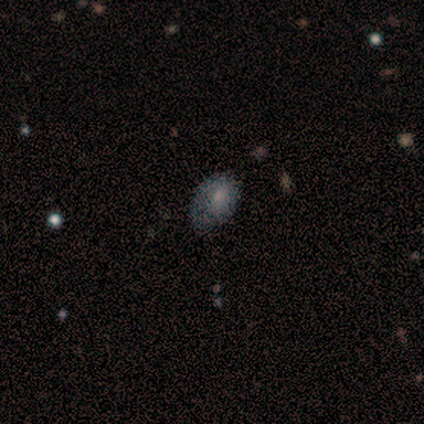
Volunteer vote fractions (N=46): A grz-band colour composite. It shows a smooth galaxy with no disk features (67%) that is in between round and cigar-shaped (84%). Merging: none (46%).